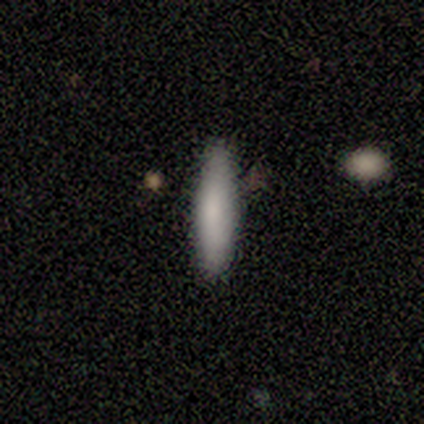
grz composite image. It shows a smooth galaxy with no disk features (100%) that is cigar-shaped (100%). Merging: none (100%).